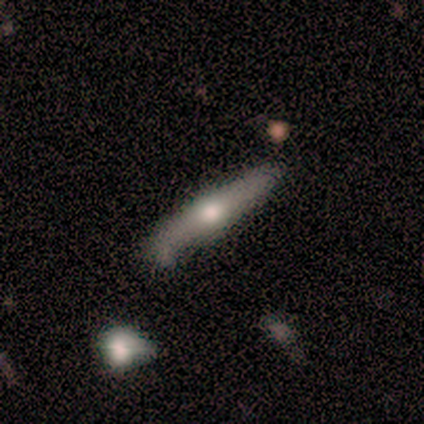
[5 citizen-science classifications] A featured or disk galaxy (60%) viewed edge-on (67%) with a rounded central bulge (100%). Merging: minor disturbance (80%).